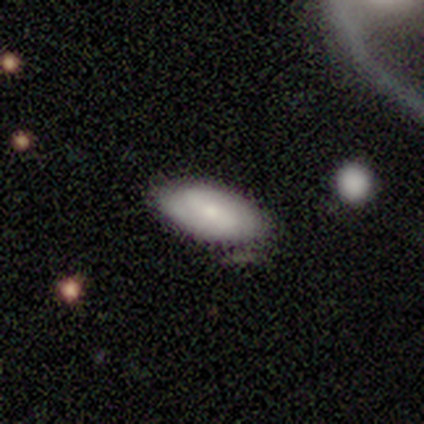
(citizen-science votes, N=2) This appears to be a featured or disk galaxy (100%) with a strong bar (50%, tied with weak), 2 (100%) tight (100%) spiral arms (100%) and a moderate central bulge (50%, tied with small). Merging: none (100%).